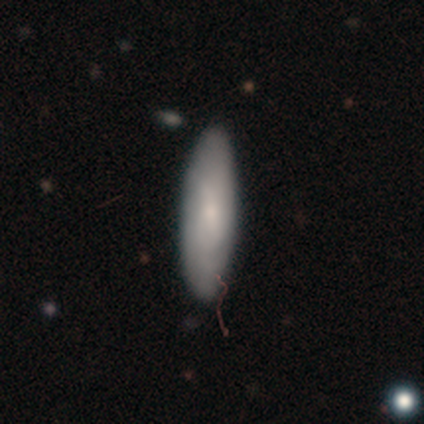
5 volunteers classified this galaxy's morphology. Smooth or featured? 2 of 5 (40%, tied with featured or disk) said smooth. How rounded? 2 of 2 (100%) said cigar-shaped. Merging? 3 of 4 (75%) said none.